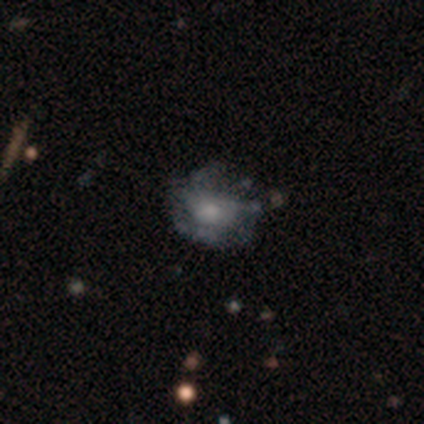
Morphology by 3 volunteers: Q: Smooth or featured?
A: featured or disk (67%); runner-up: smooth (33%)
Q: Edge-on disk?
A: no (100%)
Q: Bar?
A: weak (50%); tied with: no (50%)
Q: Spiral arms?
A: yes (50%); tied with: no (50%)
Q: Spiral winding?
A: tight (100%)
Q: Spiral arm count?
A: 3 (100%)
Q: Bulge size?
A: moderate (50%); tied with: small (50%)
Q: Merging?
A: none (67%); runner-up: minor disturbance (33%)